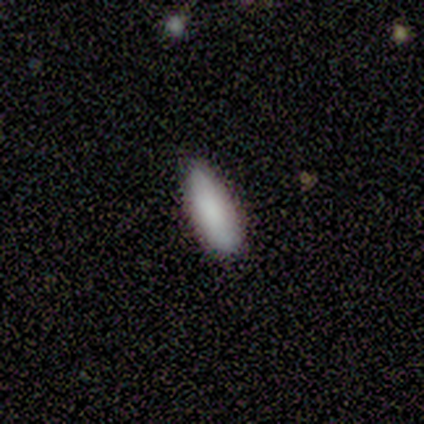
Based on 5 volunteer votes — Volunteers were most divided on "how rounded": in between: 80%, cigar-shaped: 20%, round: 0%. More confident: smooth or featured — smooth (100%); merging — minor disturbance (80%).